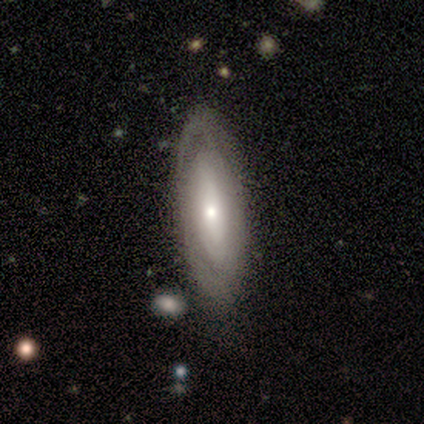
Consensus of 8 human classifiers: smooth-or-featured: featured or disk: 100% | smooth: 0% | star or artifact: 0%
  disk-edge-on: no: 75% | yes: 25%
    bar: no: 67% | weak: 33% | strong: 0%
    has-spiral-arms: no: 100% | yes: 0%
    bulge-size: moderate: 50% (tied) | small: 50% (tied) | dominant: 0% | large: 0% | none: 0%
  merging: none: 62% | minor disturbance: 12% | major disturbance: 12% | merger: 12%